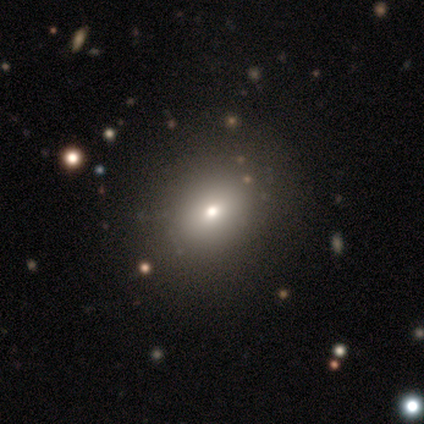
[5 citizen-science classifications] Smooth or featured: smooth — 80% (star or artifact — 20%)
How rounded: round — 50% (tied with in between — 50%)
Merging: none — 75% (major disturbance — 25%)